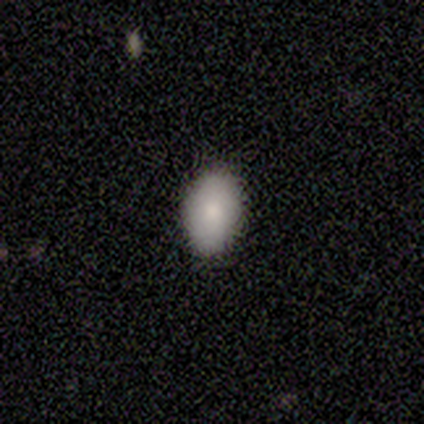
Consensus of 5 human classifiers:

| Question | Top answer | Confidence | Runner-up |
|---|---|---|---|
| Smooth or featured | smooth | 80% | star or artifact (20%) |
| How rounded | in between | 75% | round (25%) |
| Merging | none | 100% | — |